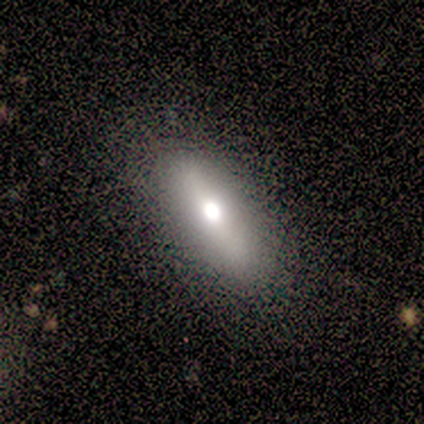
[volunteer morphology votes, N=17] This is possibly a smooth galaxy (59%). How rounded: likely in between (70%). Merging: clearly none (88%).